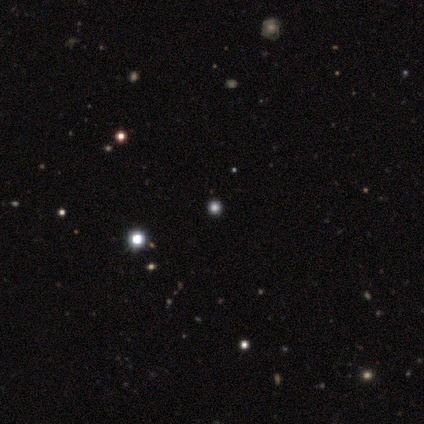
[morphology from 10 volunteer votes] smooth 60%, star or artifact 40%, featured or disk 0%. Down the decision tree: how rounded — round (100%); merging — none (100%).